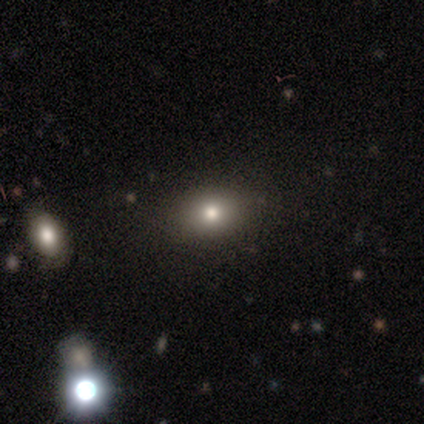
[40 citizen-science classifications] This is likely a smooth galaxy (78%). How rounded: possibly in between (55%). Merging: clearly none (92%).